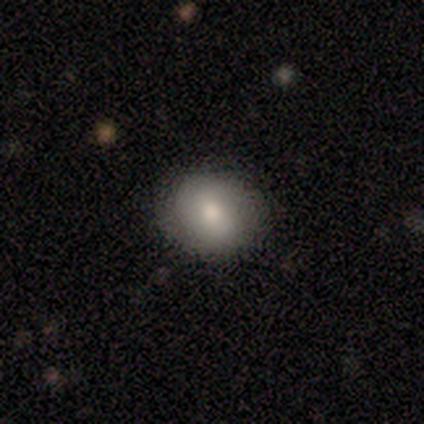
A smooth galaxy with no disk features (100%) that is round (80%). Merging: none (100%).